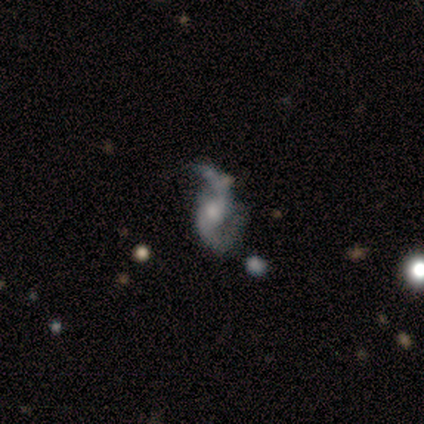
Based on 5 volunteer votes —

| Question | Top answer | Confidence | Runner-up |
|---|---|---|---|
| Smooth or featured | featured or disk | 100% | — |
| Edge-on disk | no | 100% | — |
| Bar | no | 60% | weak (40%) |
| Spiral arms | yes | 100% | — |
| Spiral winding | loose | 60% | medium (40%) |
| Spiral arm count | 2 | 100% | — |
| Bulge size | moderate | 80% | small (20%) |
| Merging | minor disturbance | 40% | tied: major disturbance (40%) |